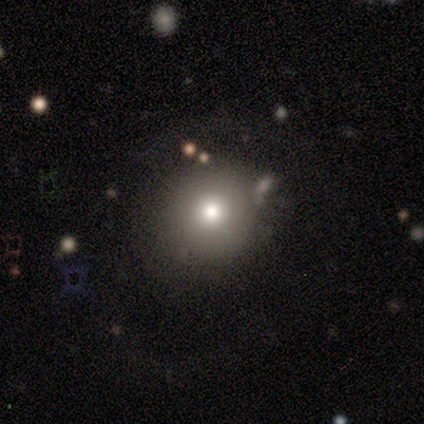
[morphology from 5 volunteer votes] This is clearly a smooth galaxy (100%). How rounded: clearly round (100%). Merging: clearly none (80%).